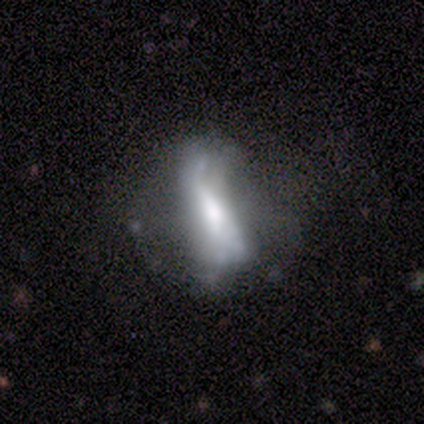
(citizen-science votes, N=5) Q: Smooth or featured?
A: smooth (40%); tied with: star or artifact (40%)
Q: How rounded?
A: in between (100%)
Q: Merging?
A: none (33%); tied with: minor disturbance (33%); major disturbance (33%)